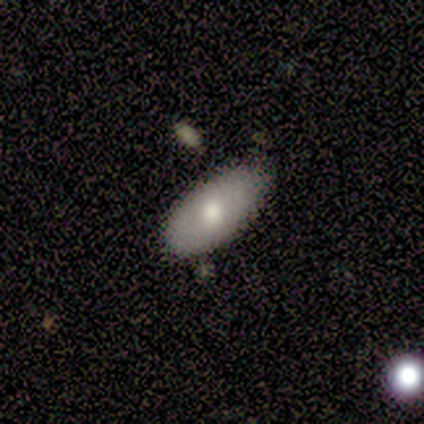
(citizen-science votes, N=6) Smooth or featured: smooth — 67% (featured or disk — 33%)
How rounded: in between — 100%
Merging: none — 67% (minor disturbance — 33%)